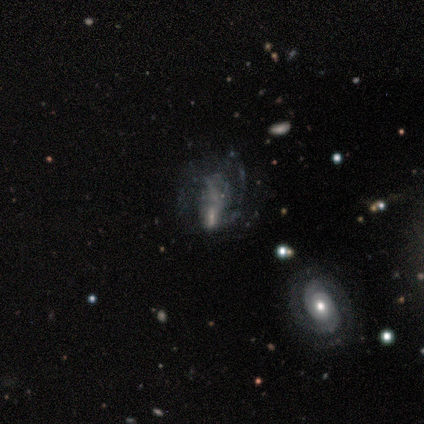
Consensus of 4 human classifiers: smooth_or_featured: featured or disk (p=0.50) [tied with: star or artifact p=0.50]
disk_edge_on: no (p=1.00)
bar: weak (p=0.50) [tied with: no p=0.50]
has_spiral_arms: yes (p=0.50) [tied with: no p=0.50]
spiral_winding: tight (p=1.00)
spiral_arm_count: 3 (p=1.00)
bulge_size: small (p=1.00)
merging: none (p=0.50) [tied with: minor disturbance p=0.50]